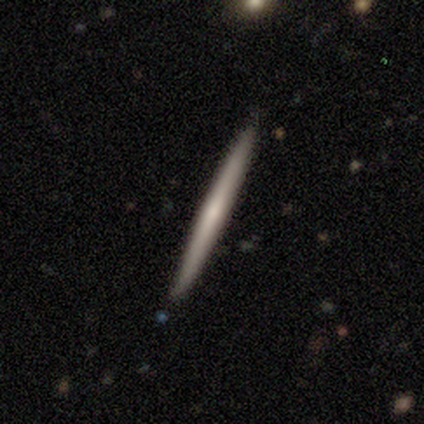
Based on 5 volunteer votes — Smooth or featured: smooth — 60% (featured or disk — 40%)
How rounded: cigar-shaped — 100%
Merging: none — 80% (minor disturbance — 20%)